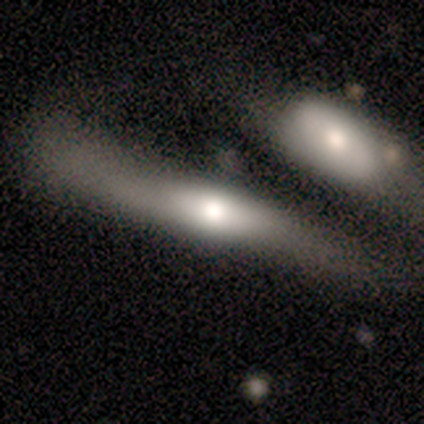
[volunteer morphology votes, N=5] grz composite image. It shows a featured or disk galaxy (60%) with no bar (100%), no spiral arms (100%) and a moderate central bulge (100%). Merging: major disturbance (60%).